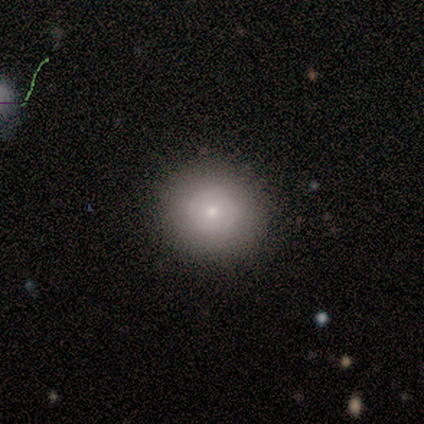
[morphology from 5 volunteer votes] Smooth or featured? 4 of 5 (80%) said smooth. How rounded? 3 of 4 (75%) said round. Merging? 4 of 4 (100%) said none.